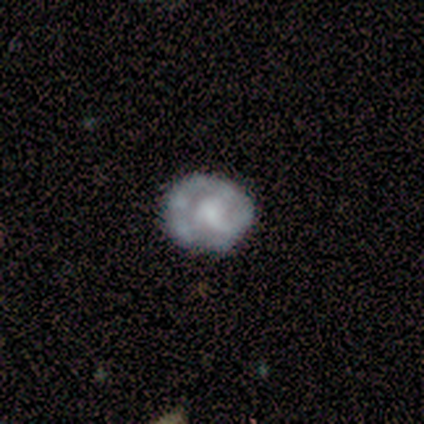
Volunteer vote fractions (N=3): A featured or disk galaxy (67%) with a strong bar (100%), 3 (100%) tight (100%) spiral arms (50%, tied with no) and a large central bulge (100%). Merging: none (33%, tied with minor disturbance and major disturbance).